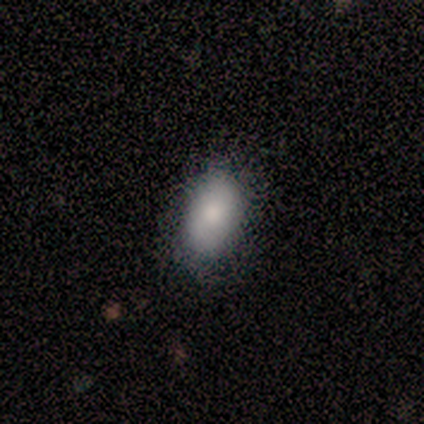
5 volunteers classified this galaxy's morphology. type=smooth (80%); roundness=in between (100%); merging=none (80%).